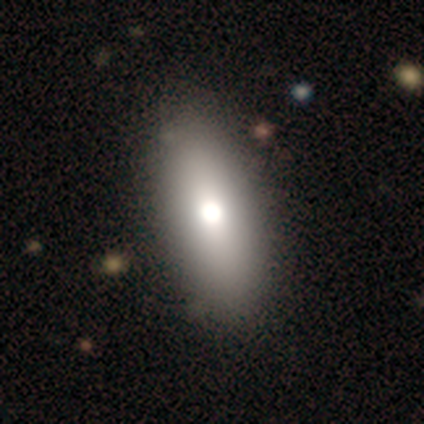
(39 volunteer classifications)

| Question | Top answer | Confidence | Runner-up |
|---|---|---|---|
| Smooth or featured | smooth | 79% | featured or disk (10%) |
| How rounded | in between | 97% | cigar-shaped (3%) |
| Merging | none | 63% | minor disturbance (3%) |